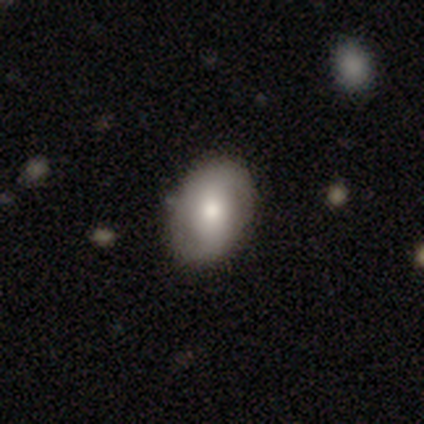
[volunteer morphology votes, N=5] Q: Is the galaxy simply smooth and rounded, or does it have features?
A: smooth — 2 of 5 (40%, tied with featured or disk).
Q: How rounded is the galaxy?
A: in between — 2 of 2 (100%).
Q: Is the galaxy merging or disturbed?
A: none — 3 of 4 (75%).